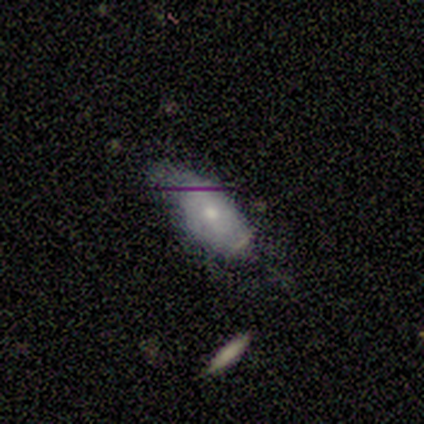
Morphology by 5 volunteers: smooth 60%, featured or disk 20%, star or artifact 20%. Down the decision tree: how rounded — in between (100%); merging — none (50%).